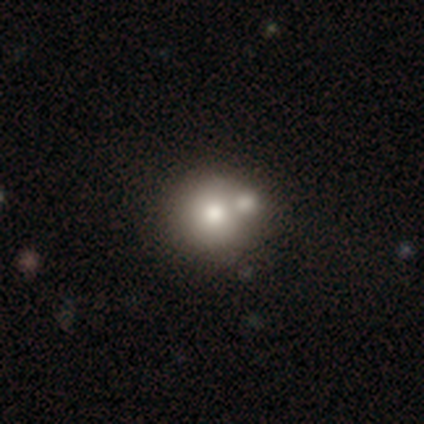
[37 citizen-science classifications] Q: Smooth or featured?
A: smooth (73%); runner-up: featured or disk (22%)
Q: How rounded?
A: round (96%); runner-up: in between (4%)
Q: Merging?
A: merger (71%)